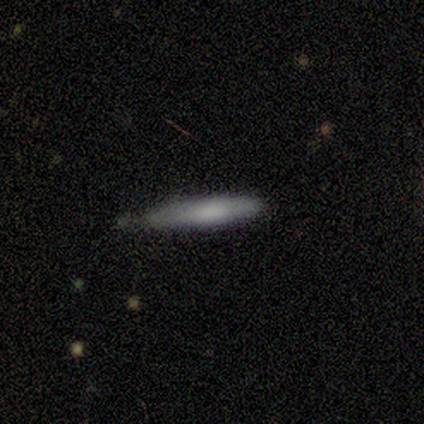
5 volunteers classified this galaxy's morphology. Smooth or featured: smooth — 80% (featured or disk — 20%)
How rounded: cigar-shaped — 100%
Merging: none — 60% (minor disturbance — 20%)